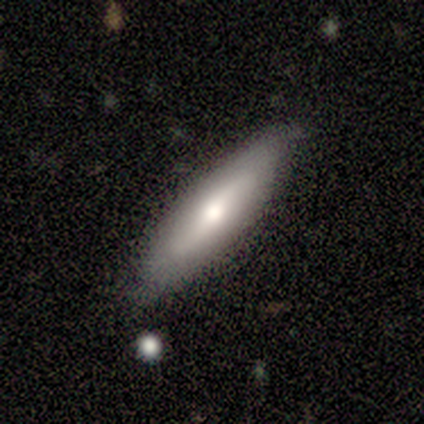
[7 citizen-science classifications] Smooth or featured? 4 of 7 (57%) said smooth. How rounded? 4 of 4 (100%) said cigar-shaped. Merging? 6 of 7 (86%) said none.